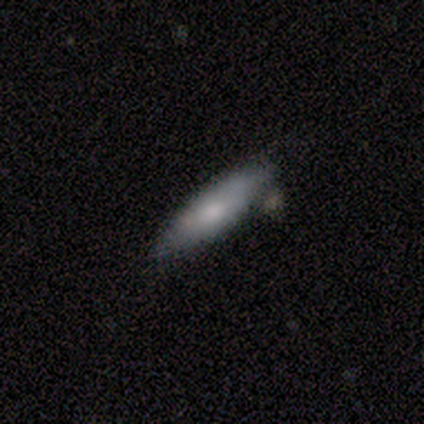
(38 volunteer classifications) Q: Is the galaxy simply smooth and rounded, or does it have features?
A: smooth — 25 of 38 (66%).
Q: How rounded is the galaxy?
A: cigar-shaped — 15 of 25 (60%).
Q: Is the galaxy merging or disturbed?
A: none — 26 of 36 (72%).